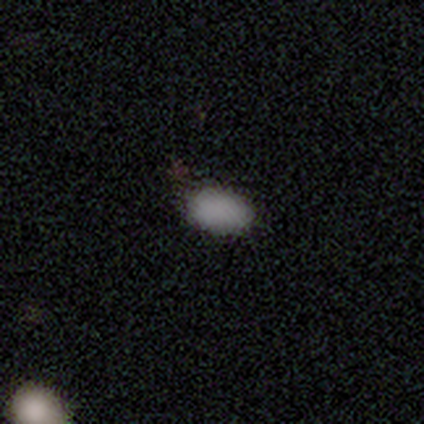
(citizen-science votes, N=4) Q: Smooth or featured?
A: smooth (100%)
Q: How rounded?
A: in between (100%)
Q: Merging?
A: none (100%)